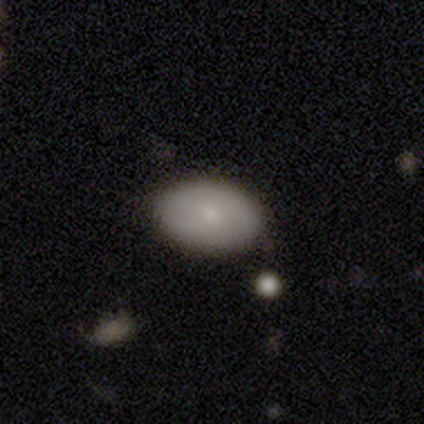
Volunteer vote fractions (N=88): Smooth or featured: smooth — 80% (featured or disk — 16%)
How rounded: in between — 91% (round — 9%)
Merging: none — 87% (minor disturbance — 11%)